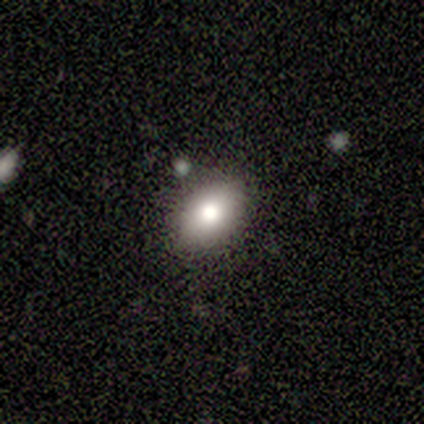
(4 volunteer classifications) Smooth or featured: smooth — 75% (star or artifact — 25%)
How rounded: in between — 100%
Merging: none — 100%